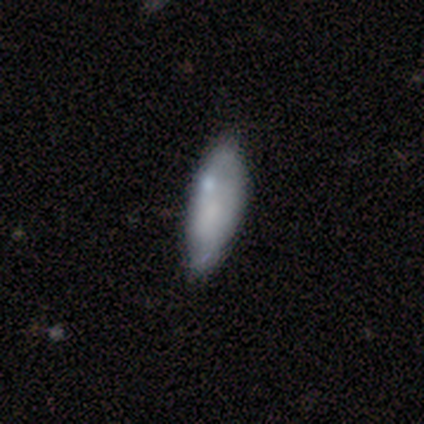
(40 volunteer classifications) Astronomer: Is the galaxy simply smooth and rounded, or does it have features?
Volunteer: smooth — 68%.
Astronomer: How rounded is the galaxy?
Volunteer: in between — 63%.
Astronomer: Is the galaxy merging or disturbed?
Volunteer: none — 36% (runner-up: minor disturbance, 18%).